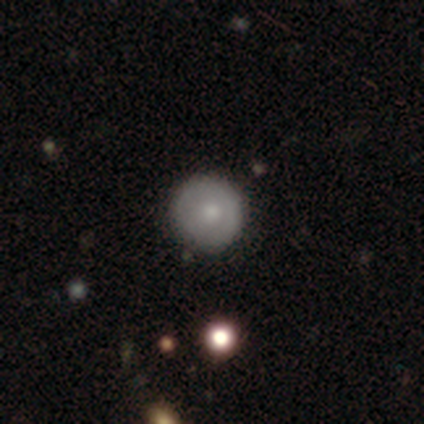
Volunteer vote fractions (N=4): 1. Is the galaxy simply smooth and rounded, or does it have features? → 75% smooth, 25% star or artifact, 0% featured or disk.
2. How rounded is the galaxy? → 100% round, 0% in between, 0% cigar-shaped.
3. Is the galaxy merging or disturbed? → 100% none, 0% minor disturbance, 0% major disturbance, 0% merger.